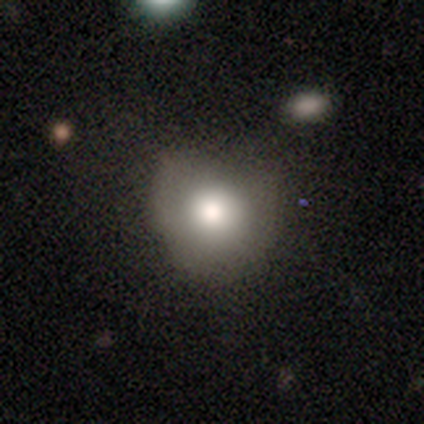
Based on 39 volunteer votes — smooth 64%, star or artifact 21%, featured or disk 15%. Down the decision tree: how rounded — round (68%); merging — none (45%).